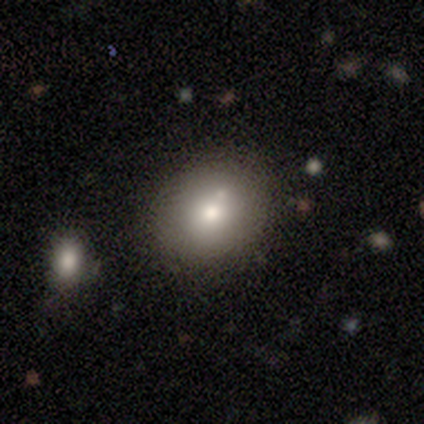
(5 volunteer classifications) This is clearly a smooth galaxy (80%). How rounded: clearly round (100%). Merging: clearly none (100%).